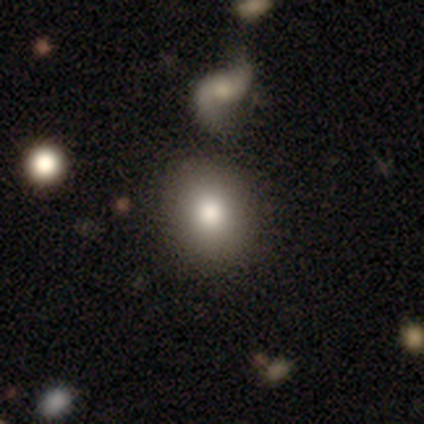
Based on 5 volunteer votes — Volunteers were most divided on "merging": none: 60%, merger: 40%, minor disturbance: 0%, major disturbance: 0%. More confident: smooth or featured — smooth (100%); how rounded — round (80%).